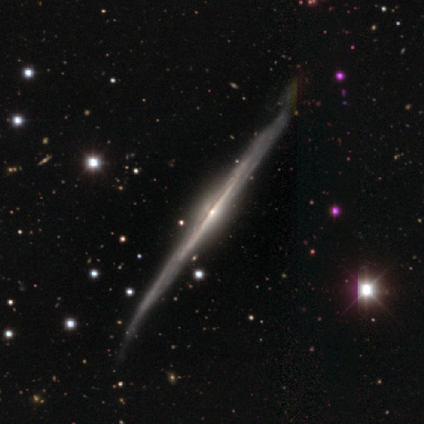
featured or disk 91%, smooth 9%, star or artifact 0%. Down the decision tree: edge-on disk — yes (90%); edge-on bulge — rounded (100%); merging — none (55%).